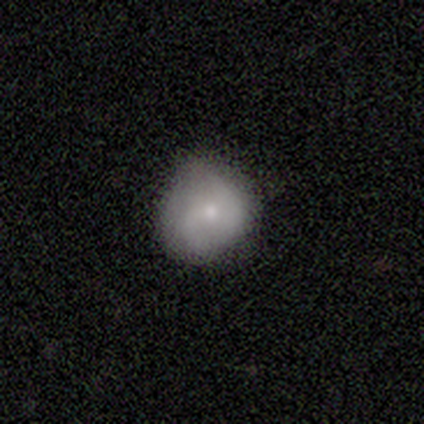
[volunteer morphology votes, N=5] smooth_or_featured: smooth (p=0.80) [alt: featured or disk p=0.20]
how_rounded: round (p=0.75) [alt: in between p=0.25]
merging: minor disturbance (p=0.60) [alt: none p=0.40]